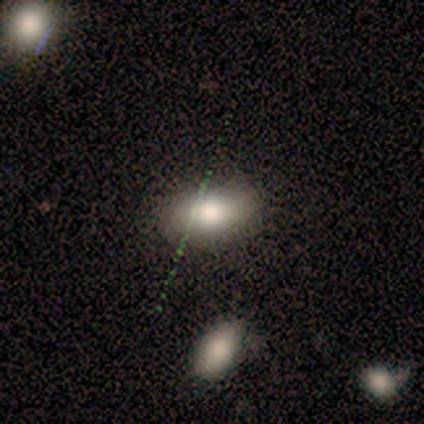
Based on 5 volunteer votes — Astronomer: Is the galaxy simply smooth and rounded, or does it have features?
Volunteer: smooth — 100%.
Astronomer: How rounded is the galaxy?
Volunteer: in between — 100%.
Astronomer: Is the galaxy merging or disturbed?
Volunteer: none — 80%.